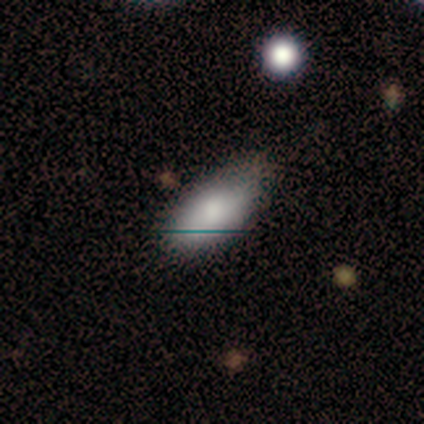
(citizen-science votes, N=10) smooth 90%, featured or disk 10%, star or artifact 0%. Down the decision tree: how rounded — in between (100%); merging — none (80%).